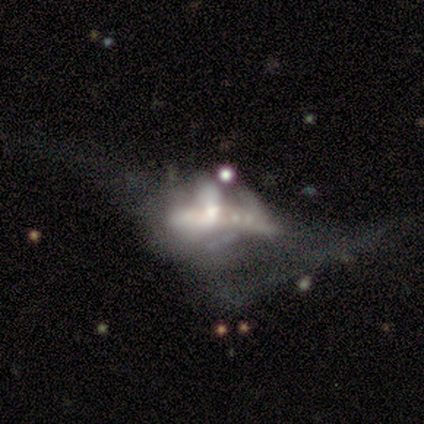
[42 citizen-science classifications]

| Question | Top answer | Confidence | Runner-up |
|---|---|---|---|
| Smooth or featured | featured or disk | 71% | star or artifact (21%) |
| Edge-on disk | no | 87% | yes (13%) |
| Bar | no | 77% | strong (15%) |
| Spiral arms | no | 88% | yes (12%) |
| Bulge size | moderate | 54% | large (15%) |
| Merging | major disturbance | 61% | merger (15%) |